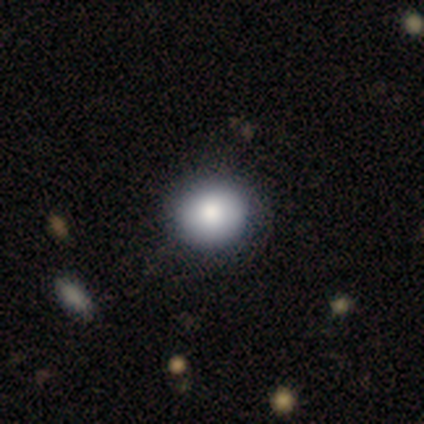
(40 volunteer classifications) Morphology: type=smooth (90%); roundness=round (72%); merging=none (60%).